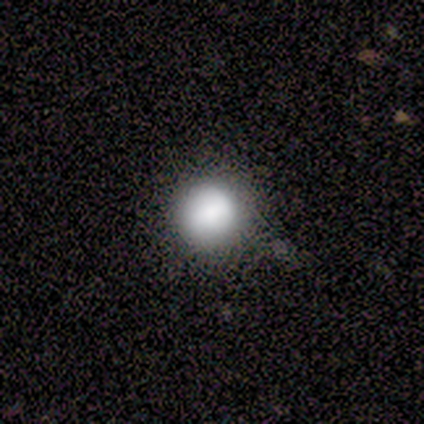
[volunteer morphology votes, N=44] smooth-or-featured: smooth: 89% | star or artifact: 9% | featured or disk: 2%
  how-rounded: round: 92% | in between: 8% | cigar-shaped: 0%
  merging: none: 80% | minor disturbance: 18% | major disturbance: 2% | merger: 0%